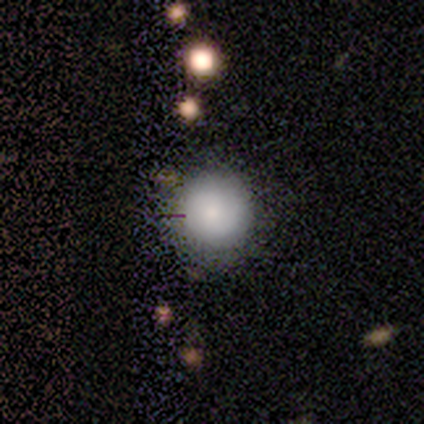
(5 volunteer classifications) A smooth galaxy with no disk features (80%) that is round (75%). Merging: none (60%).